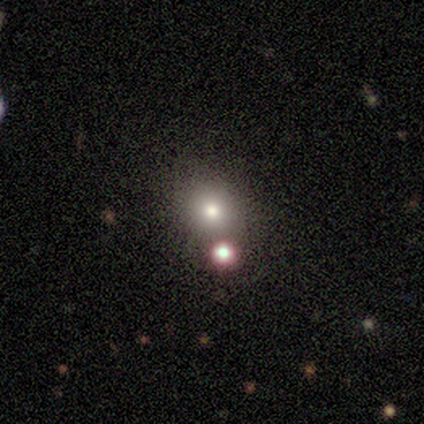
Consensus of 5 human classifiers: Smooth or featured?
  - smooth: 80% *
  - star or artifact: 20%
  - featured or disk: 0%
How rounded?
  - round: 75% *
  - in between: 25%
  - cigar-shaped: 0%
Merging?
  - none: 50% *
  - minor disturbance: 25%
  - major disturbance: 25%
  - merger: 0%